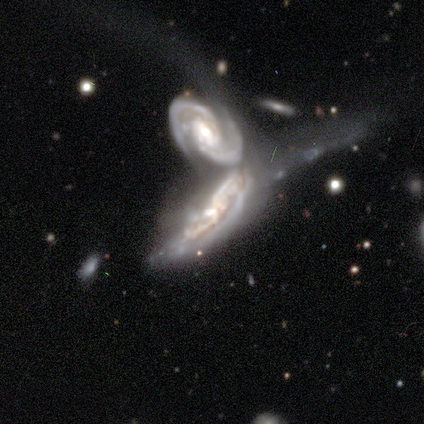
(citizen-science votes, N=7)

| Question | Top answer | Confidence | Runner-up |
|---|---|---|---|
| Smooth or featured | featured or disk | 100% | — |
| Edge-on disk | no | 100% | — |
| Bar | weak | 57% | no (43%) |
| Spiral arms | yes | 100% | — |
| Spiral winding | medium | 57% | tight (43%) |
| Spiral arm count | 2 | 43% | tied: can't tell (43%) |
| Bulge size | moderate | 57% | small (43%) |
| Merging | merger | 100% | — |